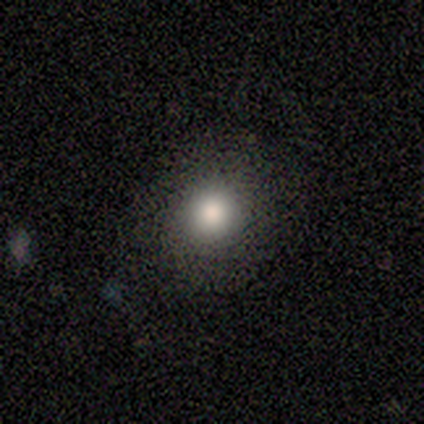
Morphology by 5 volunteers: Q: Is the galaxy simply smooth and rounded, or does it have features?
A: smooth — 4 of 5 (80%).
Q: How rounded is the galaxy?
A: round — 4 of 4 (100%).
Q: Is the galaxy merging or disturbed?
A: none — 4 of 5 (80%).